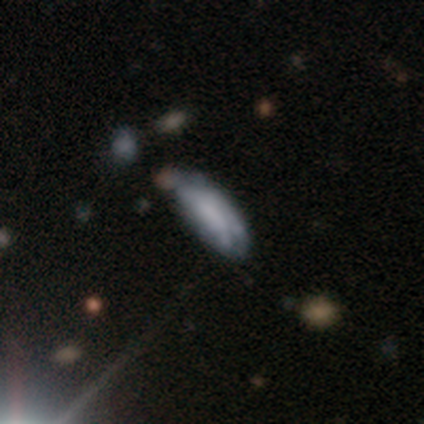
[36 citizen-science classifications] Morphology: type=featured or disk (50%); edge-on=no (67%); bar=no (83%); spiral arms=no (92%); bulge=none (58%); merging=none (43%).